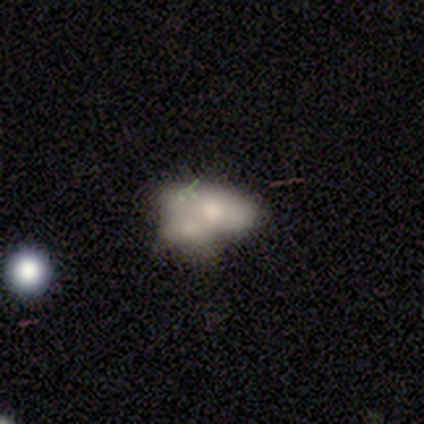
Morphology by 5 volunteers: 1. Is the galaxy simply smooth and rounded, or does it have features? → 60% featured or disk, 40% smooth, 0% star or artifact.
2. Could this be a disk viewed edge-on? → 67% no, 33% yes.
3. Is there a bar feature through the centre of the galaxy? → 100% no, 0% strong, 0% weak.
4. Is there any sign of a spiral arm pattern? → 100% no, 0% yes.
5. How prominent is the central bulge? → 50% moderate (tied), 50% small (tied), 0% dominant, 0% large, 0% none.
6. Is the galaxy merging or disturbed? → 40% minor disturbance (tied), 40% merger (tied), 20% none, 0% major disturbance.